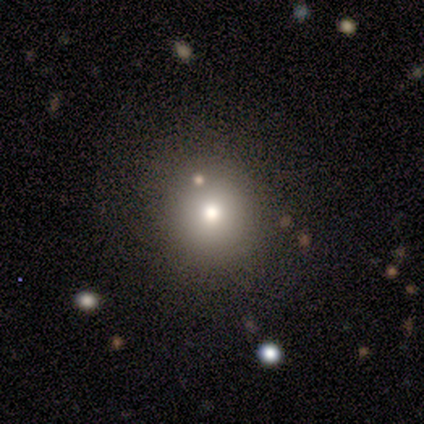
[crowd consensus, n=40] Smooth or featured: smooth — 78% (star or artifact — 18%)
How rounded: round — 94% (in between — 6%)
Merging: none — 85% (minor disturbance — 9%)